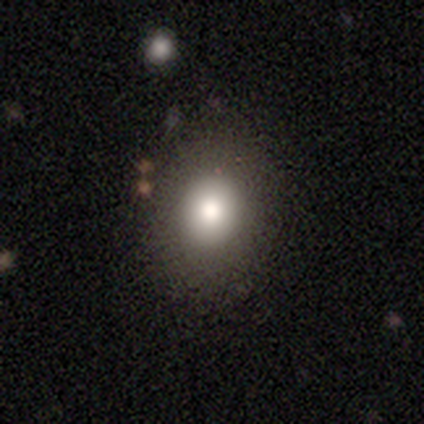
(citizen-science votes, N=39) This appears to be a smooth galaxy with no disk features (82%) that is round (53%). Merging: none (80%).